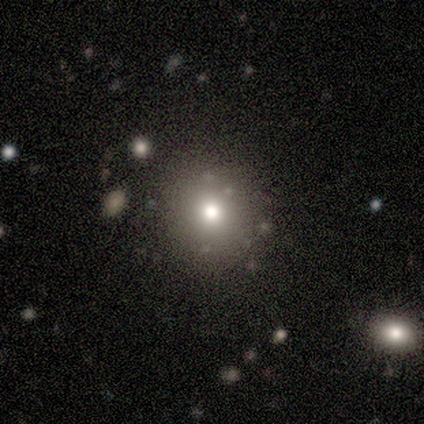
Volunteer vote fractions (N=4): A smooth galaxy with no disk features (50%, tied with star or artifact) that is round (100%). Merging: none (100%).